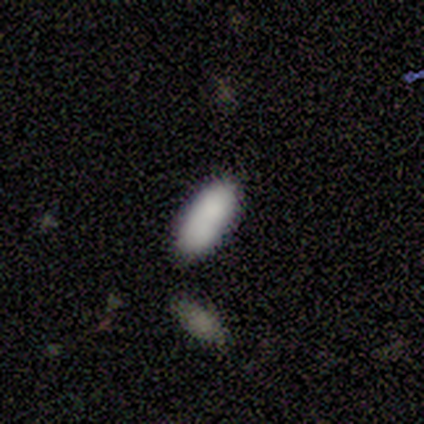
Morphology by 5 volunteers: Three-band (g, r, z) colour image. It shows a smooth galaxy with no disk features (100%) that is in between round and cigar-shaped (100%). Merging: none (80%).